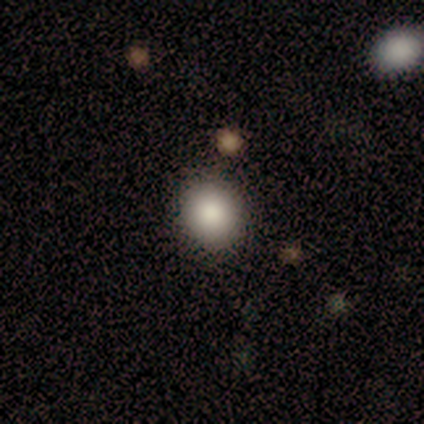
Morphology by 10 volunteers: Smooth or featured? smooth (80%)
How rounded? round (62%)
Merging? none (78%)